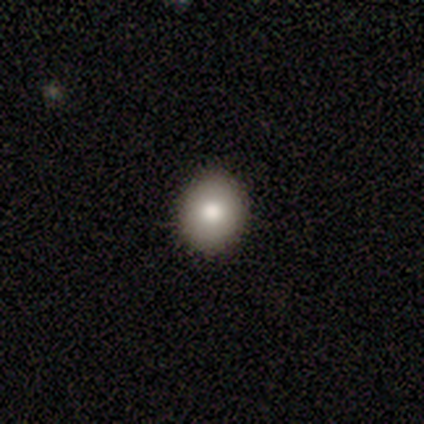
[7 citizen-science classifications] Morphology: type=smooth (86%); roundness=round (83%); merging=none (100%).